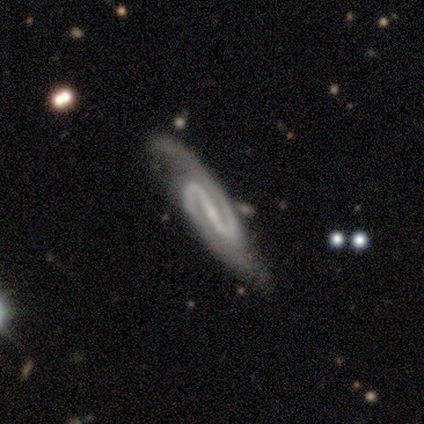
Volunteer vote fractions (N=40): Smooth or featured? 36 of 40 (90%) said featured or disk. Edge-on disk? 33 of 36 (92%) said no. Bar? 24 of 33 (73%) said strong. Spiral arms? 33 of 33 (100%) said yes. Spiral winding? 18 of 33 (55%) said medium. Spiral arm count? 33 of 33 (100%) said 2. Bulge size? 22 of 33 (67%) said small. Merging? 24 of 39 (62%) said none.